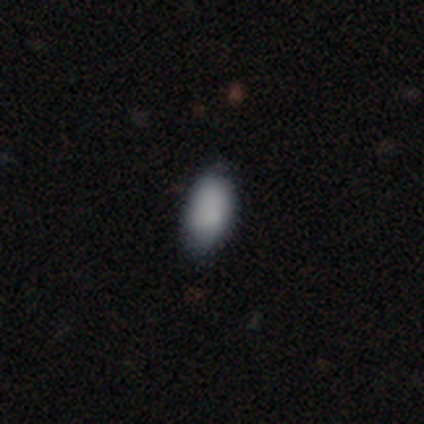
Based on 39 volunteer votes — This is clearly a smooth galaxy (82%). How rounded: clearly in between (88%). Merging: possibly none (59%).